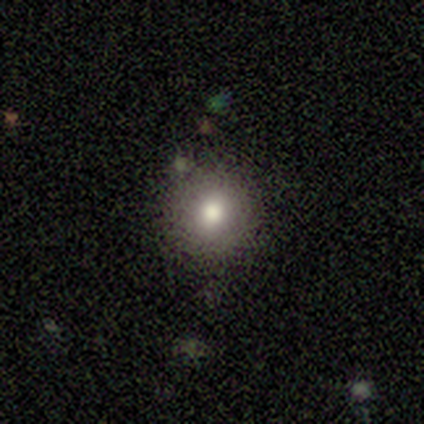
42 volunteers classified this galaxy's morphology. Smooth or featured? smooth (79%)
How rounded? round (97%)
Merging? none (79%)